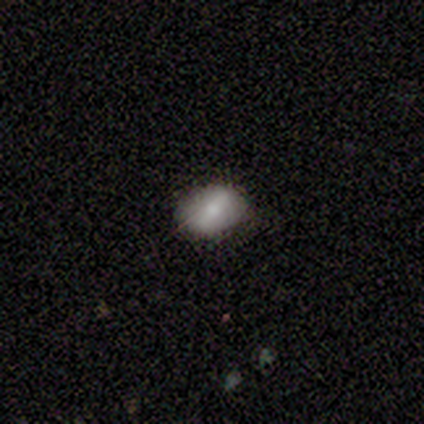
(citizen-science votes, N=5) Morphology: type=smooth (80%); roundness=in between (100%); merging=none (100%).